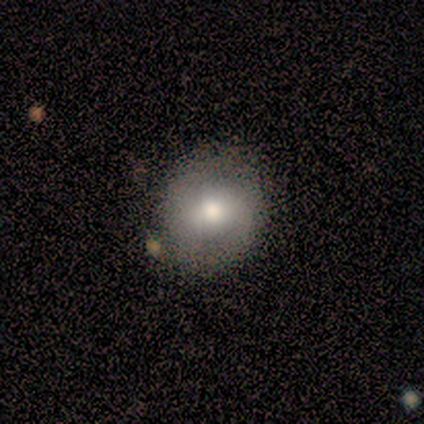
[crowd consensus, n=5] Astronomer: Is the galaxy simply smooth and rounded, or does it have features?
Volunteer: featured or disk — 80%.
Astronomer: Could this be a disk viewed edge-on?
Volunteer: no — 100%.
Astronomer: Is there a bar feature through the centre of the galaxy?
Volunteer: weak — 50%, tied with no at 50%.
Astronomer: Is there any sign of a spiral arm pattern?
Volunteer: yes — 50%, tied with no at 50%.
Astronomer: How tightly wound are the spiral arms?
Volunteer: tight — 50%, tied with medium at 50%.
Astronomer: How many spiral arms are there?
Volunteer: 2 — 100%.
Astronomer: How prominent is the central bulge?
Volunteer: moderate — 75%.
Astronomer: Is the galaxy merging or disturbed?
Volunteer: none — 80%.